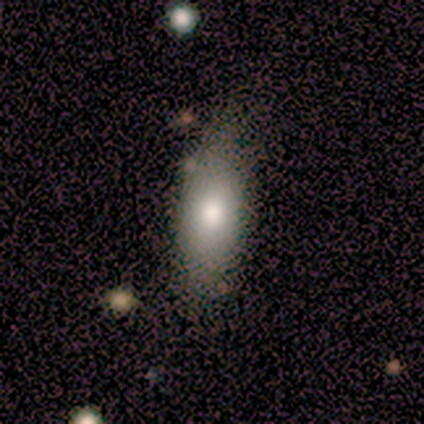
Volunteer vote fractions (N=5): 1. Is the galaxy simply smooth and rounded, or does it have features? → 100% smooth, 0% featured or disk, 0% star or artifact.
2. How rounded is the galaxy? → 80% in between, 20% cigar-shaped, 0% round.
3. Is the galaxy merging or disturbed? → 60% none, 20% minor disturbance, 20% merger, 0% major disturbance.